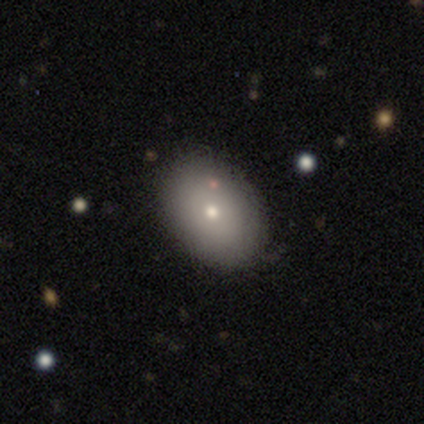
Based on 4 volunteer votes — Q: Smooth or featured?
A: smooth (50%); runner-up: featured or disk (25%)
Q: How rounded?
A: in between (100%)
Q: Merging?
A: none (100%)